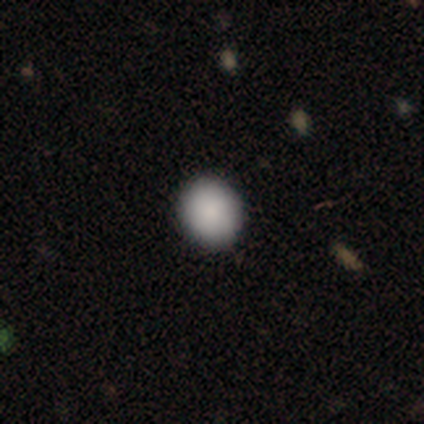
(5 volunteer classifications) This appears to be a smooth galaxy with no disk features (100%) that is in between round and cigar-shaped (60%). Merging: none (80%).